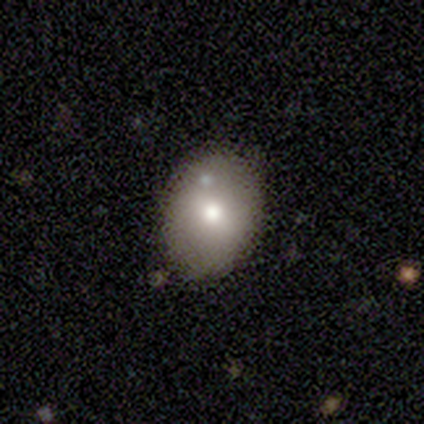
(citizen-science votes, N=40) Q: Smooth or featured?
A: smooth (65%); runner-up: featured or disk (28%)
Q: How rounded?
A: in between (69%); runner-up: round (31%)
Q: Merging?
A: none (78%); runner-up: minor disturbance (19%)